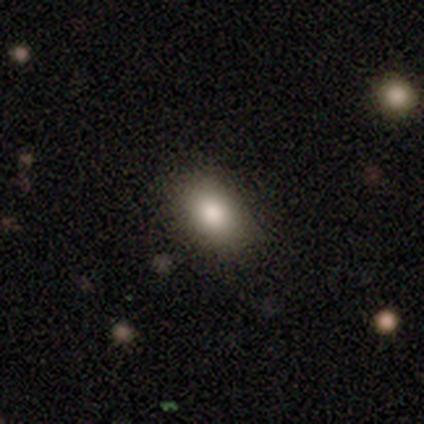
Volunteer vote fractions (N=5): This appears to be a smooth galaxy with no disk features (60%) that is in between round and cigar-shaped (100%). Merging: none (100%).